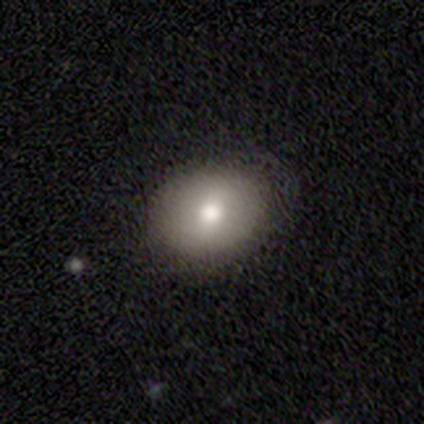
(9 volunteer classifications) Smooth or featured?
  - smooth: 78% *
  - featured or disk: 22%
  - star or artifact: 0%
How rounded?
  - round: 57% *
  - in between: 43%
  - cigar-shaped: 0%
Merging?
  - none: 89% *
  - minor disturbance: 11%
  - major disturbance: 0%
  - merger: 0%